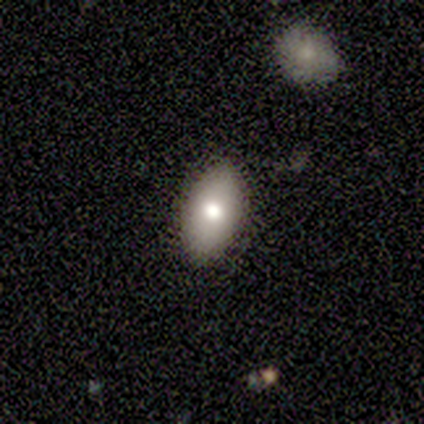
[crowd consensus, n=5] Smooth or featured?
  - smooth: 100% *
  - featured or disk: 0%
  - star or artifact: 0%
How rounded?
  - in between: 100% *
  - round: 0%
  - cigar-shaped: 0%
Merging?
  - none: 80% *
  - minor disturbance: 20%
  - major disturbance: 0%
  - merger: 0%